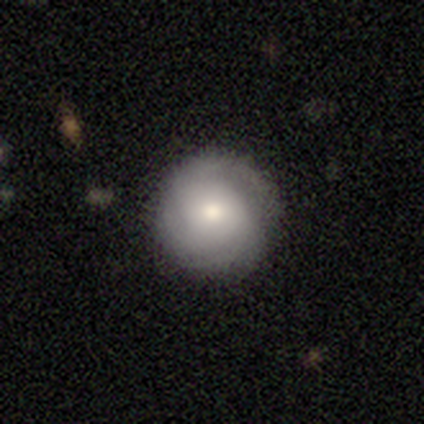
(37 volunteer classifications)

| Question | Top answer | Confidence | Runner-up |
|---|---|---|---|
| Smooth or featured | featured or disk | 59% | smooth (27%) |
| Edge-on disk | no | 100% | — |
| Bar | no | 82% | weak (14%) |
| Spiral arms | yes | 91% | no (9%) |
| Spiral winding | tight | 55% | medium (35%) |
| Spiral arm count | can't tell | 50% | 3 (25%) |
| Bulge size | moderate | 59% | small (23%) |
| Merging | none | 97% | major disturbance (3%) |